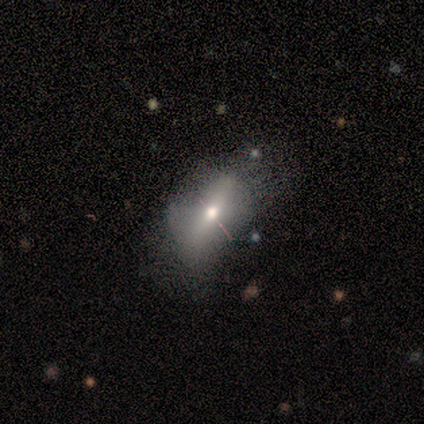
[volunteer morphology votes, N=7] A smooth galaxy with no disk features (71%) that is in between round and cigar-shaped (80%).

Vote fractions:
- Smooth or featured? smooth: 71% / featured or disk: 14% / star or artifact: 14%
- How rounded? in between: 80% / round: 20% / cigar-shaped: 0%
- Merging? none: 67% / minor disturbance: 33% / major disturbance: 0% / merger: 0%